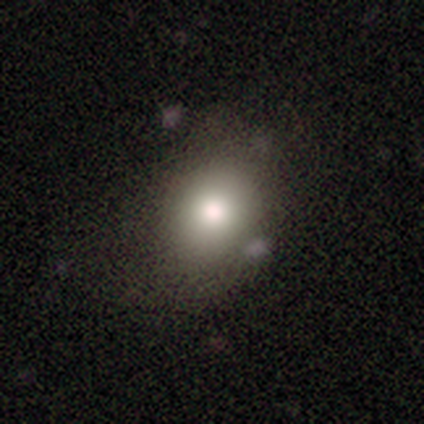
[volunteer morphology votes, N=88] Overall: smooth (75%). How rounded: round (55%; in between 44%). Merging: none (76%).